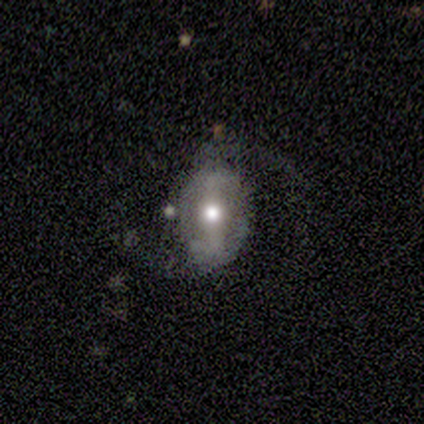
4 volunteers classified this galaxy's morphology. Volunteers were most divided on "bar": strong: 67%, weak: 33%, no: 0%. More confident: edge-on disk — no (100%); spiral arms — yes (100%); spiral arm count — 2 (100%); bulge size — moderate (100%); merging — none (100%); smooth or featured — featured or disk (75%); spiral winding — loose (67%).